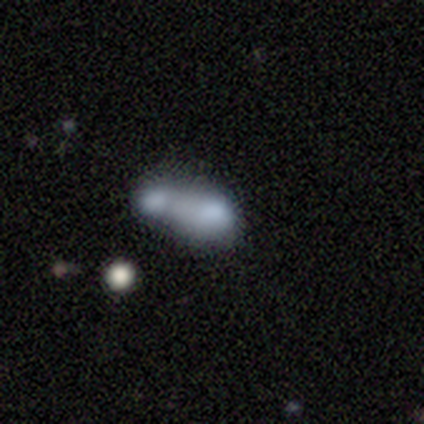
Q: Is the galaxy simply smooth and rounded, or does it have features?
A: smooth — 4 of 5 (80%).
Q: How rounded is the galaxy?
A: in between — 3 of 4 (75%).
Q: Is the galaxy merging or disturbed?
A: merger — 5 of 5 (100%).